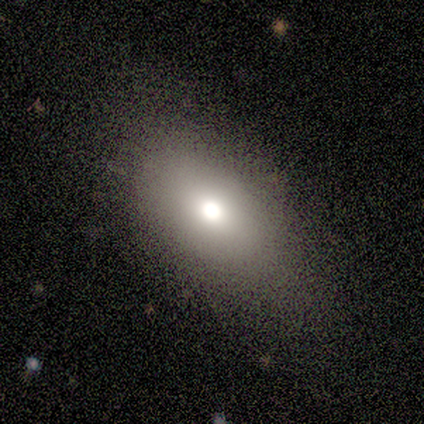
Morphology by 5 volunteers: Overall: smooth (80%). How rounded: in between (75%). Merging: none (75%).